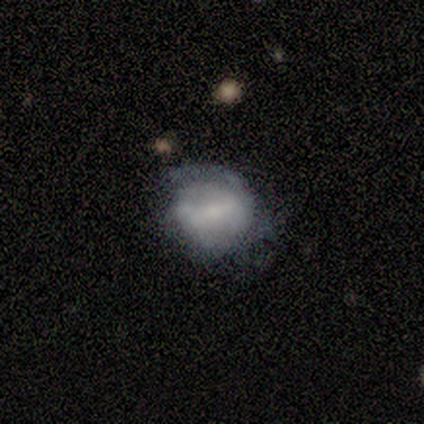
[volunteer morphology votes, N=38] smooth_or_featured: featured or disk (p=0.58) [alt: smooth p=0.37]
disk_edge_on: no (p=1.00)
bar: weak (p=0.41) [alt: strong p=0.36]
has_spiral_arms: yes (p=0.55) [alt: no p=0.45]
spiral_winding: tight (p=0.67) [alt: medium p=0.25]
spiral_arm_count: 2 (p=0.42) [alt: can't tell p=0.33]
bulge_size: none (p=0.55) [alt: moderate p=0.23]
merging: none (p=0.42) [alt: minor disturbance p=0.31]